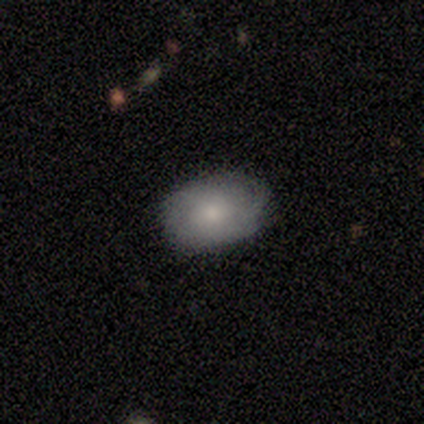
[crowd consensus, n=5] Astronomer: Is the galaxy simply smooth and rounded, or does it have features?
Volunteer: featured or disk — 60% (runner-up: smooth, 40%).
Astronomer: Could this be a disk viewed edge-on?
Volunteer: no — 67%.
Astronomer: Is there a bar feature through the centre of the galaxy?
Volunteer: no — 100%.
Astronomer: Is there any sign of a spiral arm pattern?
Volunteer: yes — 100%.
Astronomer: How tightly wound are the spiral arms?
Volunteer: tight — 50%, tied with medium at 50%.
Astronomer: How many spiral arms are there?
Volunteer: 2 — 50%, tied with can't tell at 50%.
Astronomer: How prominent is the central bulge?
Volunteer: moderate — 100%.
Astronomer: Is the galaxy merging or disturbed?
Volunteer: none — 40%, tied with minor disturbance at 40%.